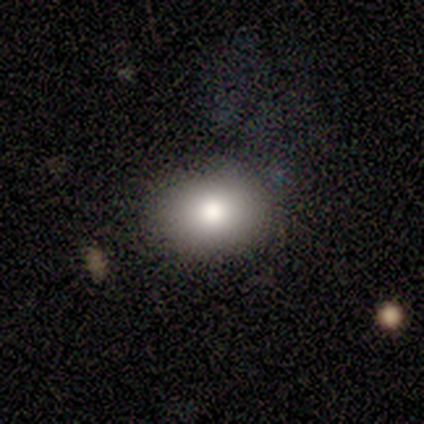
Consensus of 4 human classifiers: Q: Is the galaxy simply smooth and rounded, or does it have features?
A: smooth — 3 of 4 (75%).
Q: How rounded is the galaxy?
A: in between — 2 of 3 (67%).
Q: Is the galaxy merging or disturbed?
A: none — 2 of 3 (67%).